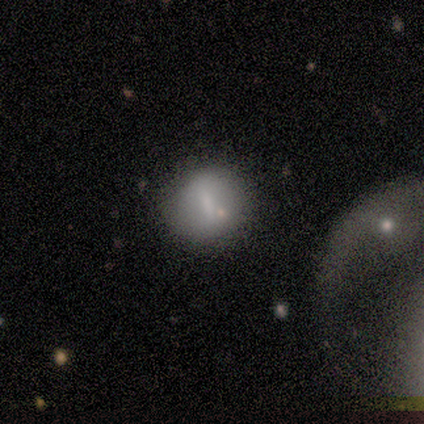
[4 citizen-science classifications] smooth 50%, featured or disk 25%, star or artifact 25%. Down the decision tree: how rounded — round (100%); merging — none (33%, tied with minor disturbance and merger).